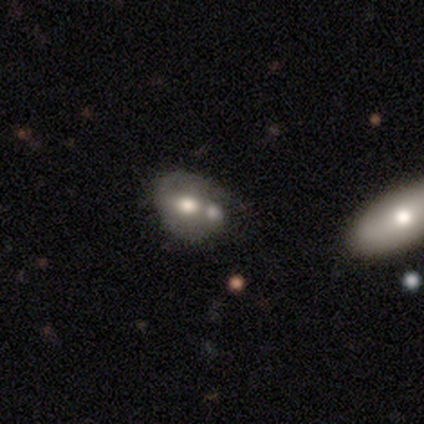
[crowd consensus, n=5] This appears to be a featured or disk galaxy (60%) with a strong bar (67%), no spiral arms (67%) and a large central bulge (67%). Merging: merger (80%).